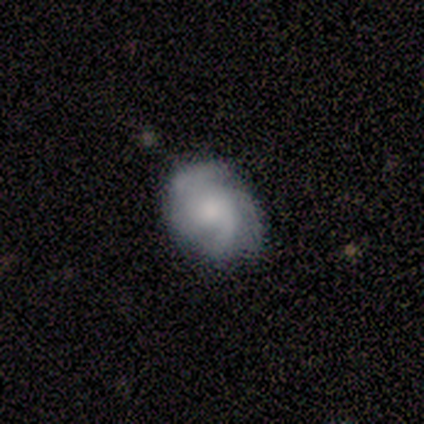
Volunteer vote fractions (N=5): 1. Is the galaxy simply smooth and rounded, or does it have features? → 40% smooth (tied), 40% featured or disk (tied), 20% star or artifact.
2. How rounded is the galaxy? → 50% round (tied), 50% in between (tied), 0% cigar-shaped.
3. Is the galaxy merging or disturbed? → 75% none, 25% minor disturbance, 0% major disturbance, 0% merger.